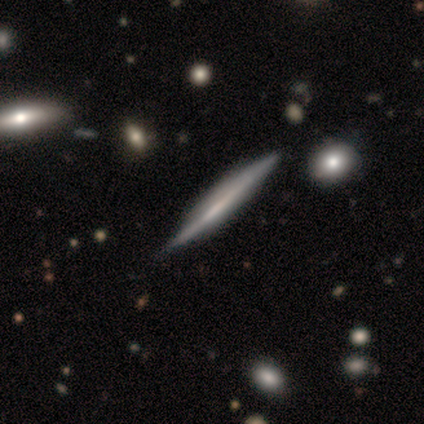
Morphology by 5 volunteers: type=featured or disk (100%); edge-on=yes (100%); edge-on bulge=none (60%); merging=none (80%).